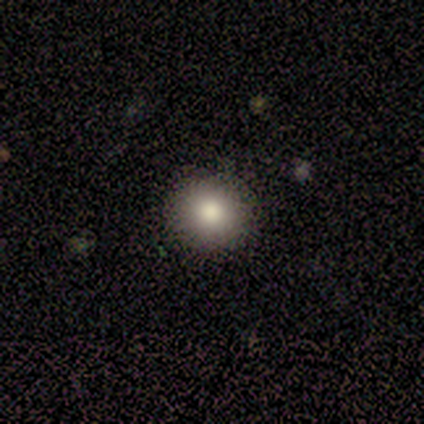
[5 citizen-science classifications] A smooth galaxy with no disk features (60%) that is round (100%).

Vote fractions:
- Smooth or featured? smooth: 60% / featured or disk: 20% / star or artifact: 20%
- How rounded? round: 100% / in between: 0% / cigar-shaped: 0%
- Merging? none: 100% / minor disturbance: 0% / major disturbance: 0% / merger: 0%